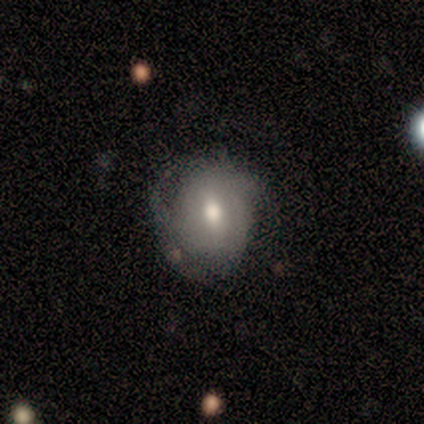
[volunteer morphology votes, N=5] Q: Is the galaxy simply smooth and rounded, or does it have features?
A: smooth — 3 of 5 (60%).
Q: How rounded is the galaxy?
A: round — 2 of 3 (67%).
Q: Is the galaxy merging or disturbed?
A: none — 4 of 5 (80%).